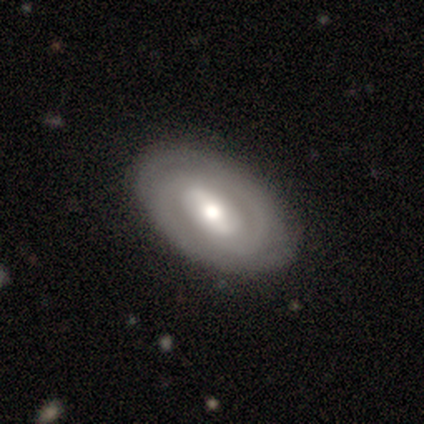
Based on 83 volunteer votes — A featured or disk galaxy (72%) with a weak bar (43%), 2 (60%) tight (57%) spiral arms (75%) and a moderate central bulge (70%).

Vote fractions:
- Smooth or featured? featured or disk: 72% / smooth: 25% / star or artifact: 2%
- Edge-on disk? no: 93% / yes: 7%
- Bar? weak: 43% / strong: 38% / no: 20%
- Spiral arms? yes: 75% / no: 25%
- Spiral winding? tight: 57% / medium: 36% / loose: 7%
- Spiral arm count? 2: 60% / can't tell: 31% / 4: 5% / 3: 2% / more than 4: 2% / 1: 0%
- Bulge size? moderate: 70% / small: 16% / large: 12% / dominant: 2% / none: 0%
- Merging? none: 88% / minor disturbance: 11% / major disturbance: 1% / merger: 0%